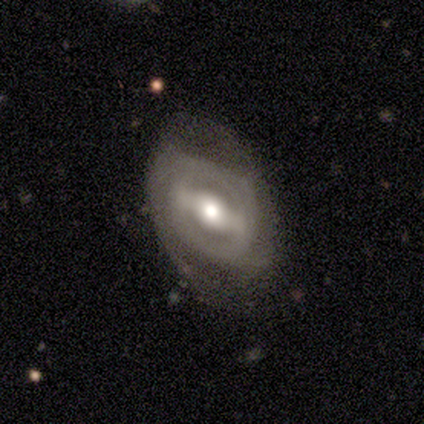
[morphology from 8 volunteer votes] smooth-or-featured: featured or disk: 88% | smooth: 12% | star or artifact: 0%
  disk-edge-on: no: 71% | yes: 29%
    bar: strong: 40% (tied) | weak: 40% (tied) | no: 20%
    has-spiral-arms: no: 60% | yes: 40%
    bulge-size: moderate: 60% | small: 40% | dominant: 0% | large: 0% | none: 0%
  merging: minor disturbance: 38% (tied) | major disturbance: 38% (tied) | none: 25% | merger: 0%